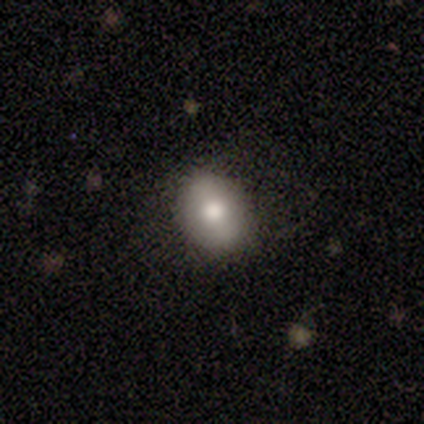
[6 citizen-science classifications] Volunteers were most divided on "how rounded": in between: 80%, round: 20%, cigar-shaped: 0%. More confident: merging — none (100%); smooth or featured — smooth (83%).